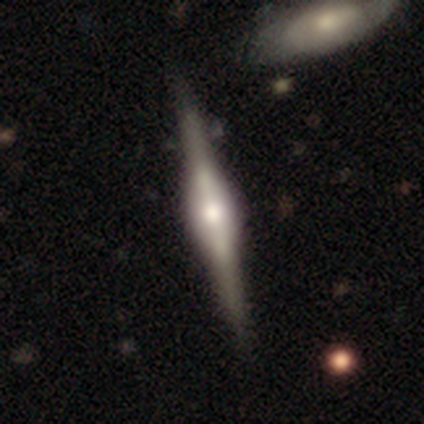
A featured or disk galaxy (87%) viewed edge-on (97%) with a rounded central bulge (72%). Merging: none (62%).